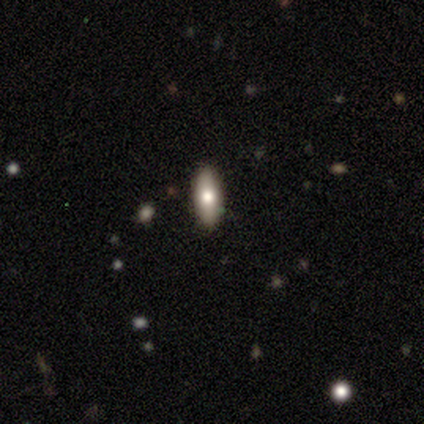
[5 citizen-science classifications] Smooth or featured: smooth — 80% (star or artifact — 20%)
How rounded: in between — 100%
Merging: none — 75% (minor disturbance — 25%)